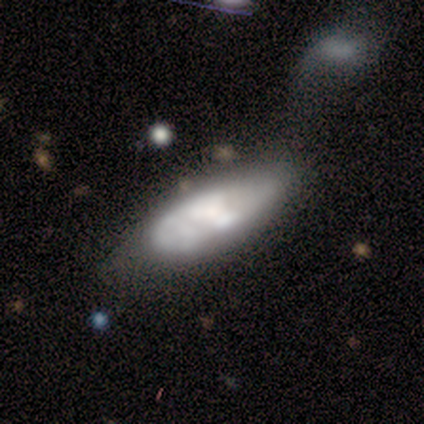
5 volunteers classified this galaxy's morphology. Smooth or featured: featured or disk — 60% (smooth — 40%)
Edge-on disk: no — 100%
Bar: no — 67% (strong — 33%)
Spiral arms: no — 67% (yes — 33%)
Bulge size: moderate — 67% (small — 33%)
Merging: none — 40% (tied with minor disturbance — 40%)